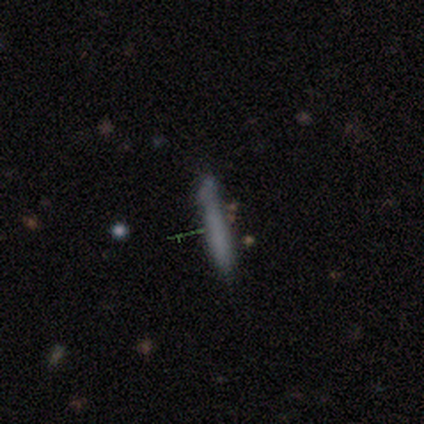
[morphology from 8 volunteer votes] Volunteers were most divided on "merging": none: 71%, minor disturbance: 29%, major disturbance: 0%, merger: 0%. More confident: how rounded — cigar-shaped (100%); smooth or featured — smooth (75%).